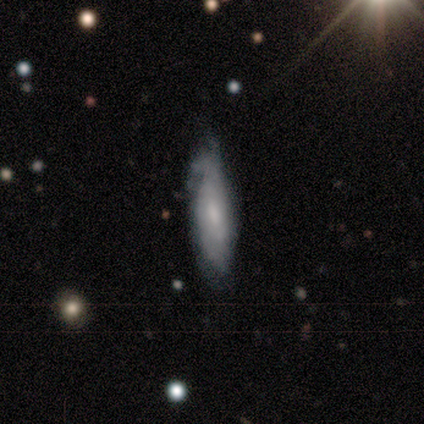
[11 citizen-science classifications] featured or disk 73%, smooth 27%, star or artifact 0%. Down the decision tree: edge-on disk — no (62%); bar — no (60%); spiral arms — yes (60%); spiral arm count — can't tell (67%); spiral winding — tight (33%, tied with medium and loose); bulge size — small (80%); merging — none (45%).